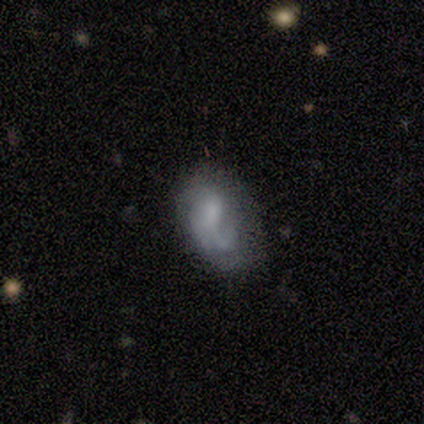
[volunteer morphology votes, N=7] A smooth galaxy with no disk features (43%, tied with featured or disk) that is in between round and cigar-shaped (100%).

Vote fractions:
- Smooth or featured? smooth: 43% (tied) / featured or disk: 43% (tied) / star or artifact: 14%
- How rounded? in between: 100% / round: 0% / cigar-shaped: 0%
- Merging? minor disturbance: 50% / none: 33% / merger: 17% / major disturbance: 0%